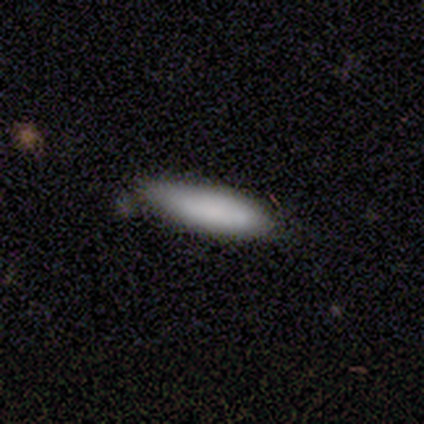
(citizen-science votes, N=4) smooth-or-featured: smooth: 50% | featured or disk: 25% | star or artifact: 25%
  how-rounded: cigar-shaped: 100% | round: 0% | in between: 0%
  merging: none: 100% | minor disturbance: 0% | major disturbance: 0% | merger: 0%